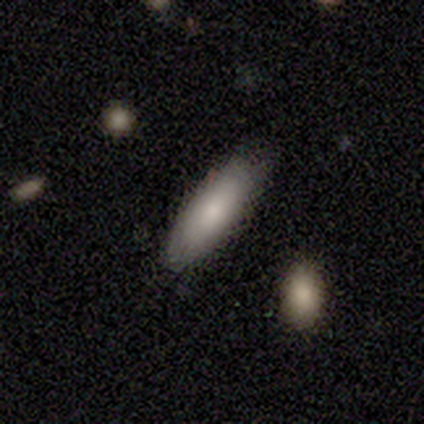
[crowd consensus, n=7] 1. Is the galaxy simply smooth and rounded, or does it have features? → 86% smooth, 14% star or artifact, 0% featured or disk.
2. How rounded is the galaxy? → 67% cigar-shaped, 33% in between, 0% round.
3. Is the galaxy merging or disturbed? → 83% none, 17% minor disturbance, 0% major disturbance, 0% merger.